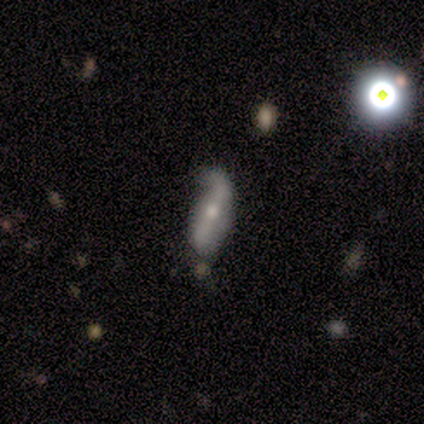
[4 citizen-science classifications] Morphology: type=featured or disk (75%); edge-on=no (67%); bar=strong (50%, tied with no); spiral arms=yes (100%); winding=loose (100%); arm count=2 (100%); bulge=moderate (50%, tied with small); merging=minor disturbance (67%).